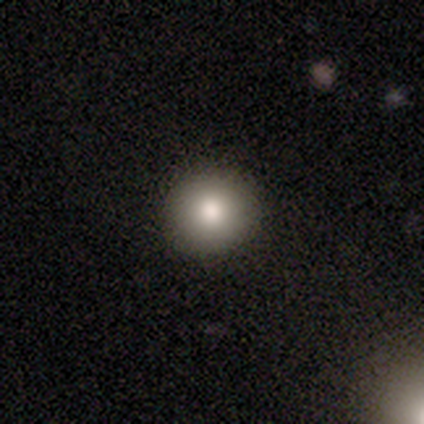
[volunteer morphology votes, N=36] Smooth or featured? smooth (67%)
How rounded? round (100%)
Merging? none (86%)